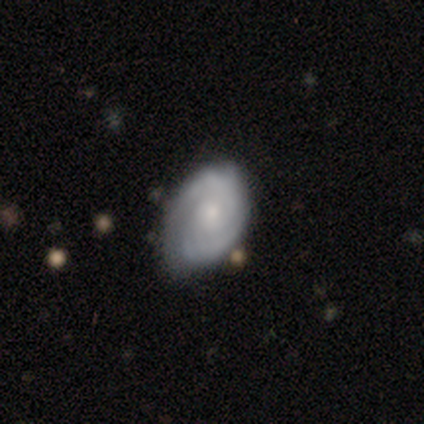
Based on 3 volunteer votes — Volunteers were most divided on "merging" (3-way tie): none: 33%, minor disturbance: 33%, merger: 33%, major disturbance: 0%. More confident: how rounded — in between (100%); smooth or featured — smooth (67%).